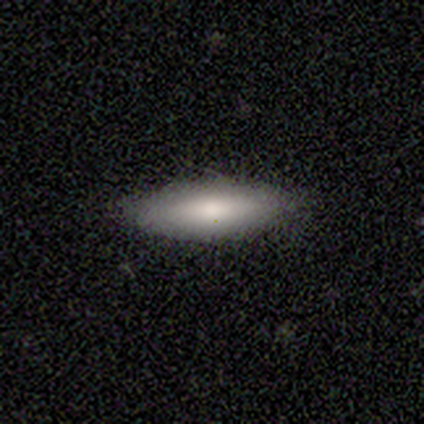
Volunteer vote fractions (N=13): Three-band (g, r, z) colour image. It shows a smooth galaxy with no disk features (77%) that is in between round and cigar-shaped (50%, tied with cigar-shaped). Merging: none (73%).